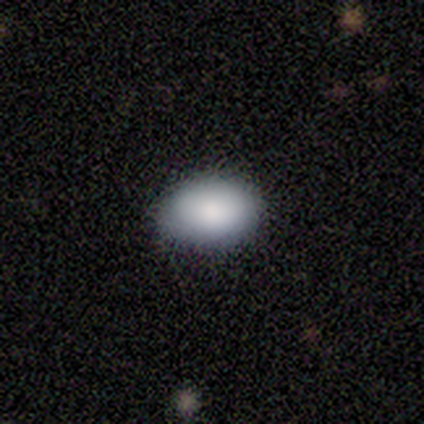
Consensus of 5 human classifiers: smooth 100%, featured or disk 0%, star or artifact 0%. Down the decision tree: how rounded — in between (100%); merging — none (100%).